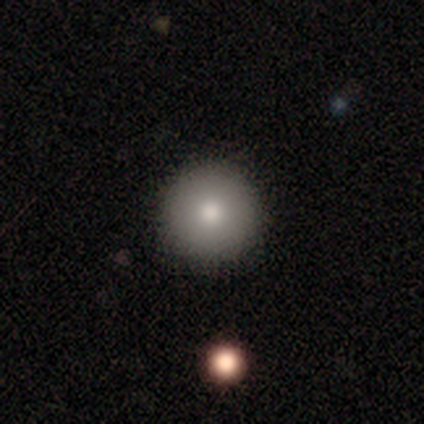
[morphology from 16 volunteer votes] Smooth or featured? smooth (100%)
How rounded? round (100%)
Merging? none (100%)